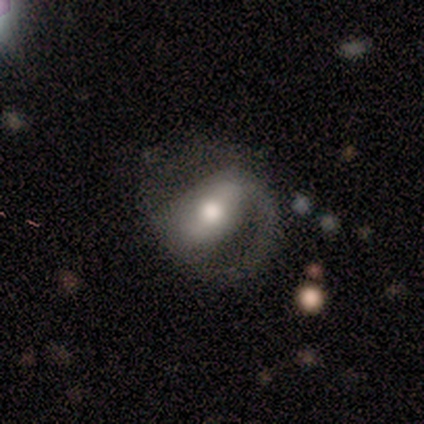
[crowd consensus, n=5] smooth_or_featured: featured or disk (p=0.80) [alt: smooth p=0.20]
disk_edge_on: no (p=0.75) [alt: yes p=0.25]
bar: strong (p=0.67) [alt: no p=0.33]
has_spiral_arms: yes (p=0.67) [alt: no p=0.33]
spiral_winding: tight (p=0.50) [tied with: medium p=0.50]
spiral_arm_count: 1 (p=0.50) [tied with: 2 p=0.50]
bulge_size: moderate (p=1.00)
merging: none (p=0.60) [alt: minor disturbance p=0.20]